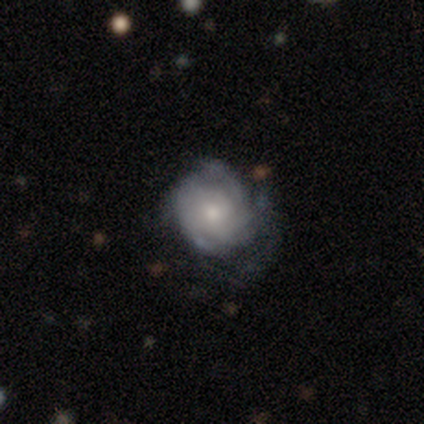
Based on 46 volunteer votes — smooth-or-featured: featured or disk: 72% | smooth: 22% | star or artifact: 7%
  disk-edge-on: no: 97% | yes: 3%
    bar: no: 88% | weak: 12% | strong: 0%
    has-spiral-arms: yes: 94% | no: 6%
      spiral-winding: tight: 70% | medium: 17% | loose: 13%
      spiral-arm-count: can't tell: 27% | 3: 20% | 4: 20% | 2: 17% | more than 4: 10% | 1: 7%
    bulge-size: small: 53% | moderate: 44% | large: 3% | dominant: 0% | none: 0%
  merging: none: 51% | major disturbance: 23% | minor disturbance: 21% | merger: 5%